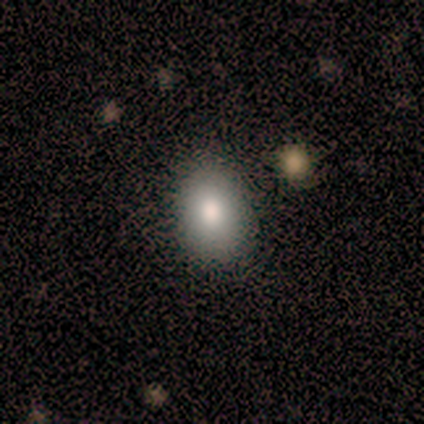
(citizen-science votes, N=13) Smooth or featured? smooth (85%)
How rounded? in between (91%)
Merging? none (75%)